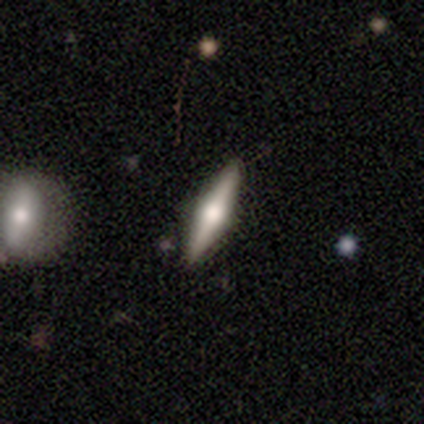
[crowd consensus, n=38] featured or disk 66%, smooth 21%, star or artifact 13%. Down the decision tree: edge-on disk — yes (100%); edge-on bulge — rounded (96%); merging — none (97%).